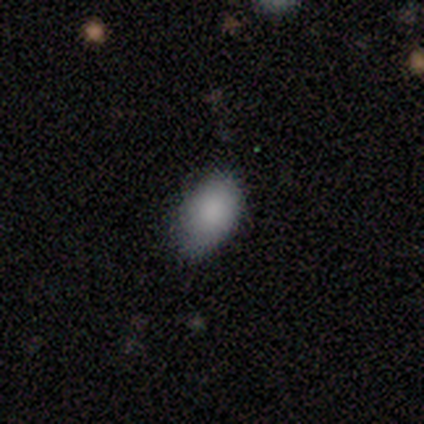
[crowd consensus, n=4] Smooth or featured? 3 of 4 (75%) said smooth. How rounded? 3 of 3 (100%) said in between. Merging? 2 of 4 (50%, tied with minor disturbance) said none.